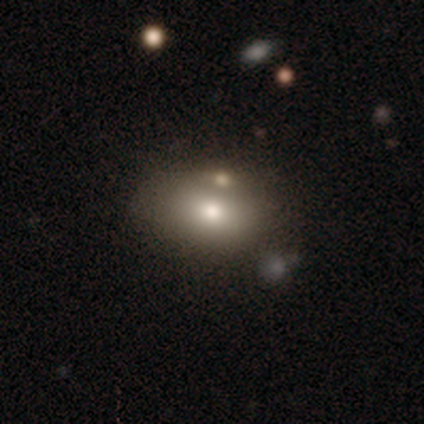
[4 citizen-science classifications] Volunteers were most divided on "smooth or featured" (2-way tie): smooth: 50%, featured or disk: 50%, star or artifact: 0%. More confident: how rounded — in between (100%); merging — none (75%).